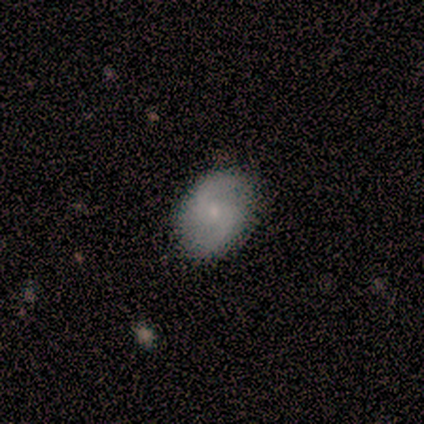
A featured or disk galaxy (80%) with no bar (100%), 2 (75%) medium (50%, tied with loose) spiral arms (100%) and a small central bulge (75%). Merging: none (100%).